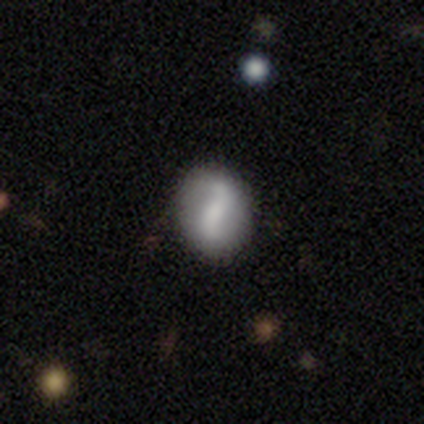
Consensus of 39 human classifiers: Smooth or featured?
  - featured or disk: 59% *
  - smooth: 36%
  - star or artifact: 5%
Edge-on disk?
  - no: 100% *
  - yes: 0%
Bar?
  - strong: 52% *
  - no: 30%
  - weak: 17%
Spiral arms?
  - yes: 70% *
  - no: 30%
Spiral winding?
  - loose: 94% *
  - medium: 6%
  - tight: 0%
Spiral arm count?
  - 2: 94% *
  - can't tell: 6%
  - 1: 0%
  - 3: 0%
  - 4: 0%
  - more than 4: 0%
Bulge size?
  - none: 48% *
  - small: 22%
  - moderate: 17%
  - large: 13%
  - dominant: 0%
Merging?
  - none: 81% *
  - minor disturbance: 8%
  - merger: 8%
  - major disturbance: 3%